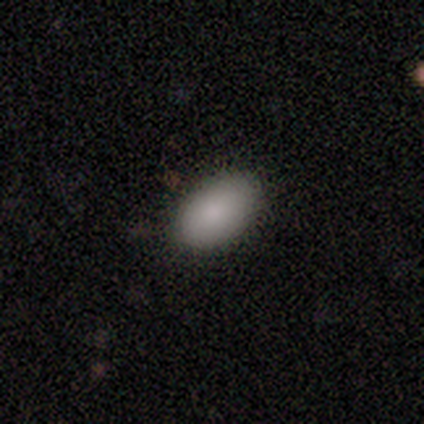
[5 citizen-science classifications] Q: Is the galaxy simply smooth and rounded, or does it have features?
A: smooth — 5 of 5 (100%).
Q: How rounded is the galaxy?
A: in between — 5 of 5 (100%).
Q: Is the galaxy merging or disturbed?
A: none — 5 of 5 (100%).